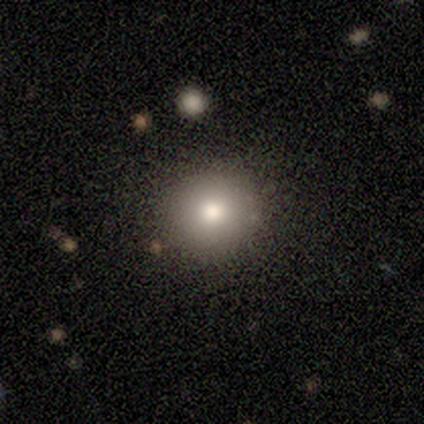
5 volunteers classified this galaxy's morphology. type=smooth (80%); roundness=round (100%); merging=none (100%).